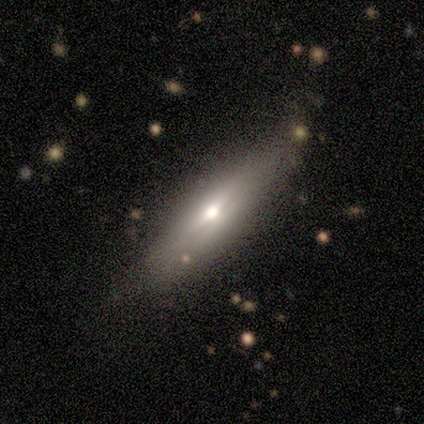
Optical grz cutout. It shows a smooth galaxy with no disk features (53%) that is cigar-shaped (88%). Merging: none (43%).